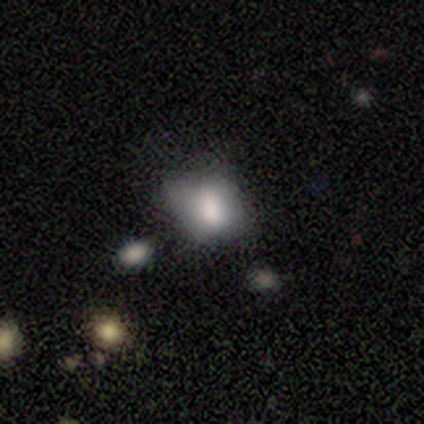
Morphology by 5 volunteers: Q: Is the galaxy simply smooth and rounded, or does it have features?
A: smooth — 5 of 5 (100%).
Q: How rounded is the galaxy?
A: round — 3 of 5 (60%).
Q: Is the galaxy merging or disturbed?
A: none — 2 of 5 (40%, tied with major disturbance).